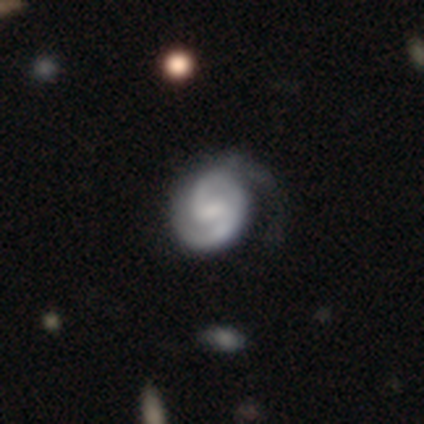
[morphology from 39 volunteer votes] Smooth or featured: featured or disk — 92% (smooth — 8%)
Edge-on disk: no — 100%
Bar: weak — 53% (strong — 25%)
Spiral arms: yes — 100%
Spiral winding: tight — 53% (medium — 42%)
Spiral arm count: 2 — 78% (can't tell — 11%)
Bulge size: small — 36% (moderate — 31%)
Merging: none — 36% (minor disturbance — 23%)